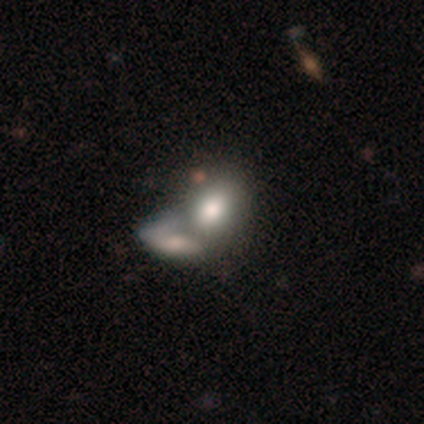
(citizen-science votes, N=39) Smooth or featured?
  - smooth: 69% *
  - featured or disk: 28%
  - star or artifact: 3%
How rounded?
  - in between: 78% *
  - round: 15%
  - cigar-shaped: 7%
Merging?
  - merger: 79% *
  - none: 5%
  - minor disturbance: 3%
  - major disturbance: 3%